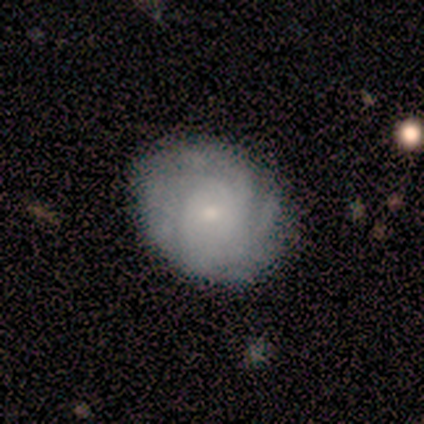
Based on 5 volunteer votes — smooth_or_featured: featured or disk (p=0.60) [alt: smooth p=0.40]
disk_edge_on: no (p=1.00)
bar: no (p=1.00)
has_spiral_arms: yes (p=1.00)
spiral_winding: tight (p=0.67) [alt: medium p=0.33]
spiral_arm_count: can't tell (p=0.67) [alt: 4 p=0.33]
bulge_size: small (p=1.00)
merging: none (p=1.00)